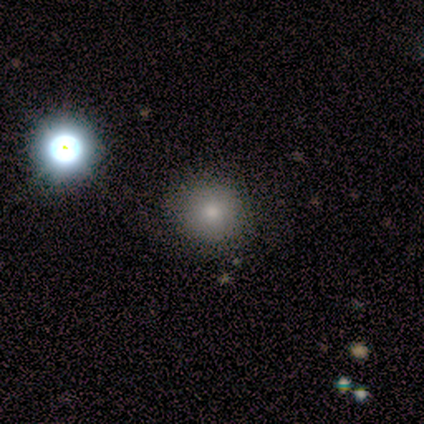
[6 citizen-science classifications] Smooth or featured? smooth (83%)
How rounded? round (80%)
Merging? none (83%)